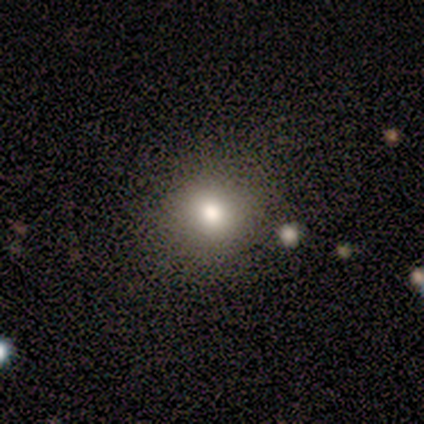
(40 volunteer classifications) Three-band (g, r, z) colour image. It shows a smooth galaxy with no disk features (78%) that is round (87%). Merging: none (86%).